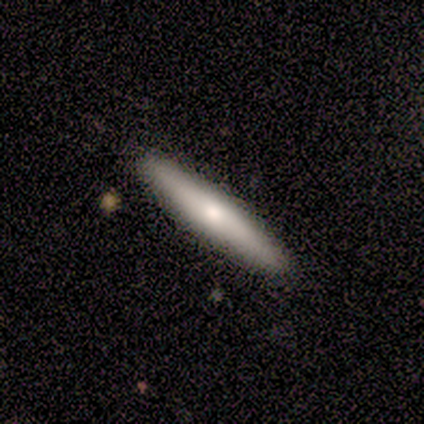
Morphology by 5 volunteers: Smooth or featured? 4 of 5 (80%) said smooth. How rounded? 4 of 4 (100%) said cigar-shaped. Merging? 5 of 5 (100%) said none.